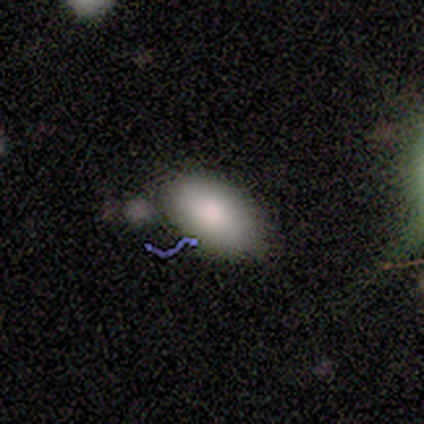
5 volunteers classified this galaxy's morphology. smooth-or-featured: smooth: 60% | featured or disk: 40% | star or artifact: 0%
  how-rounded: in between: 100% | round: 0% | cigar-shaped: 0%
  merging: none: 80% | minor disturbance: 20% | major disturbance: 0% | merger: 0%